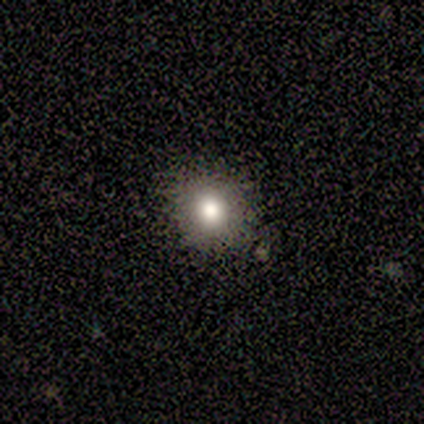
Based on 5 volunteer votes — smooth-or-featured: smooth: 40% (tied) | star or artifact: 40% (tied) | featured or disk: 20%
  how-rounded: round: 100% | in between: 0% | cigar-shaped: 0%
  merging: none: 67% | minor disturbance: 33% | major disturbance: 0% | merger: 0%